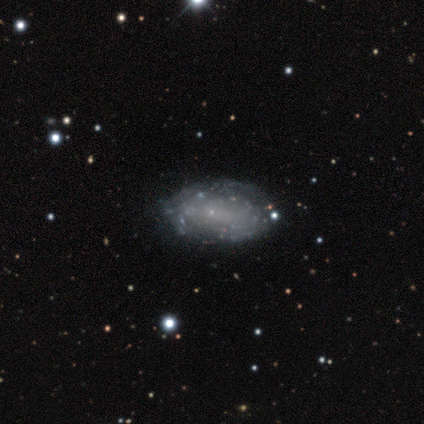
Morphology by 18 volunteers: smooth-or-featured: featured or disk: 50% | smooth: 44% | star or artifact: 6%
  disk-edge-on: no: 100% | yes: 0%
    bar: no: 78% | weak: 22% | strong: 0%
    has-spiral-arms: no: 78% | yes: 22%
    bulge-size: none: 78% | small: 22% | dominant: 0% | large: 0% | moderate: 0%
  merging: none: 94% | merger: 6% | minor disturbance: 0% | major disturbance: 0%